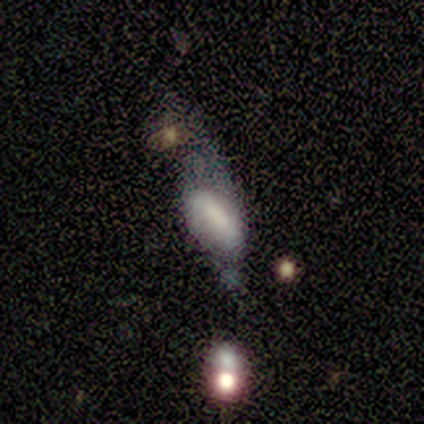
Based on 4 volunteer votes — smooth_or_featured: featured or disk (p=0.75) [alt: smooth p=0.25]
disk_edge_on: no (p=1.00)
bar: no (p=0.67) [alt: weak p=0.33]
has_spiral_arms: no (p=1.00)
bulge_size: large (p=0.33) [tied with: moderate p=0.33, small p=0.33]
merging: major disturbance (p=1.00)